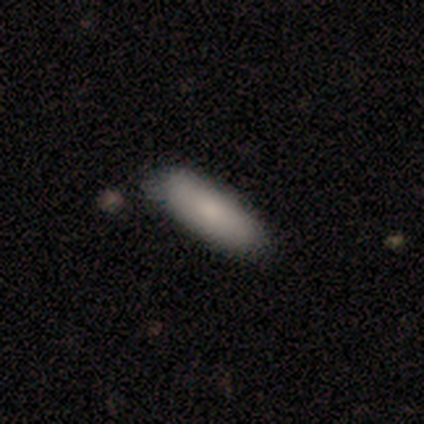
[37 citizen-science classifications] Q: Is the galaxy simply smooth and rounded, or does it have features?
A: smooth — 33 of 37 (89%).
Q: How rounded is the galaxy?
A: in between — 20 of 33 (61%).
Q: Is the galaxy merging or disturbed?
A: none — 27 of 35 (77%).